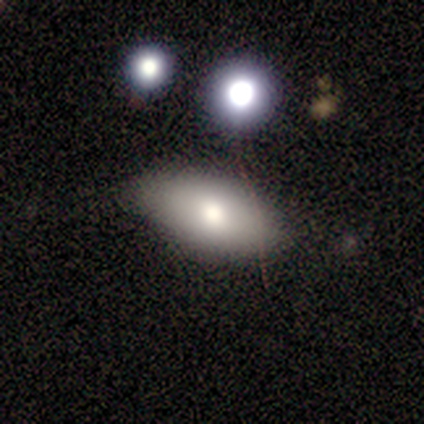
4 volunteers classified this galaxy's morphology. type=star or artifact (50%).